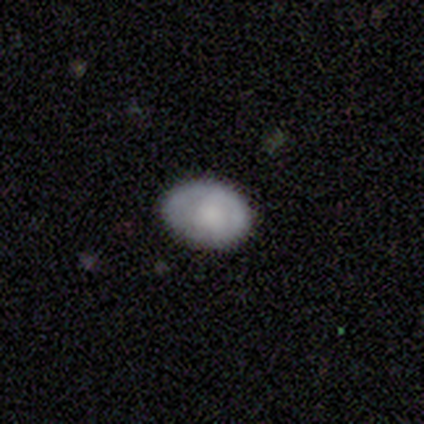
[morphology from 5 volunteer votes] This is clearly a smooth galaxy (80%). How rounded: likely in between (75%). Merging: clearly none (80%).